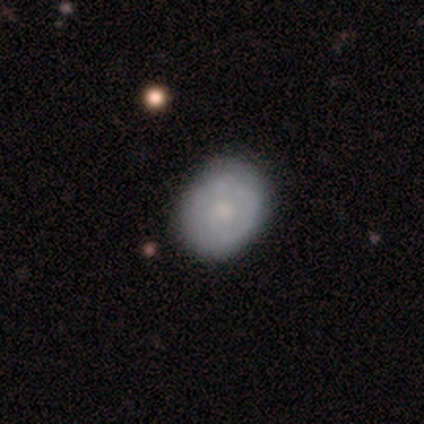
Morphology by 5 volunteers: Volunteers were most divided on "how rounded": round: 75%, in between: 25%, cigar-shaped: 0%. More confident: merging — none (100%); smooth or featured — smooth (80%).